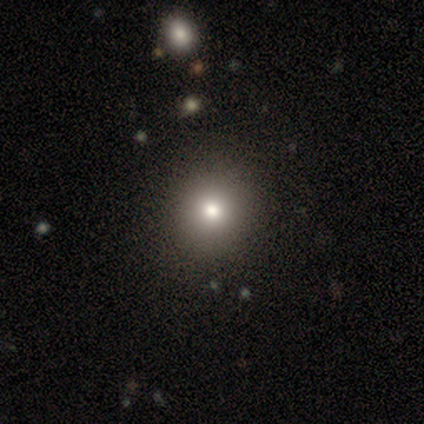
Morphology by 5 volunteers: smooth-or-featured: smooth: 80% | star or artifact: 20% | featured or disk: 0%
  how-rounded: round: 100% | in between: 0% | cigar-shaped: 0%
  merging: none: 100% | minor disturbance: 0% | major disturbance: 0% | merger: 0%